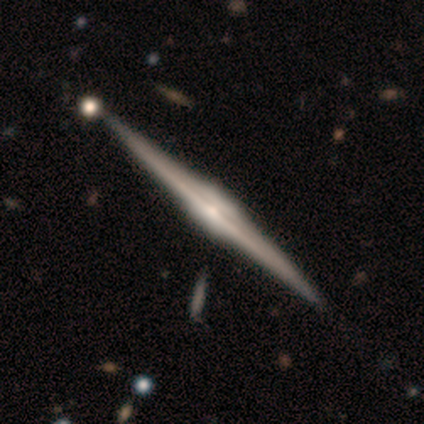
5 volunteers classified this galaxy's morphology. smooth_or_featured: featured or disk (p=1.00)
disk_edge_on: yes (p=1.00)
edge_on_bulge: boxy (p=0.80) [alt: none p=0.20]
merging: none (p=0.60) [alt: minor disturbance p=0.20]